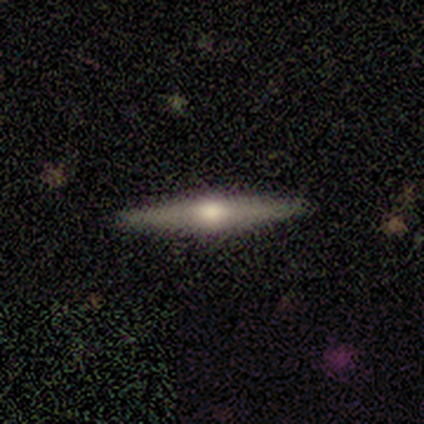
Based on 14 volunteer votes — Smooth or featured: featured or disk — 64% (smooth — 36%)
Edge-on disk: yes — 100%
Edge-on bulge: rounded — 100%
Merging: none — 93% (minor disturbance — 7%)